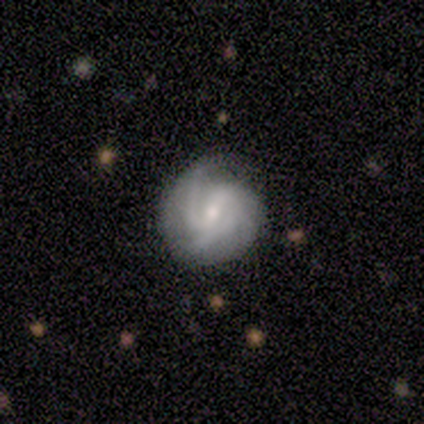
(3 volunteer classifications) Smooth or featured?
  - smooth: 67% *
  - star or artifact: 33%
  - featured or disk: 0%
How rounded?
  - round: 100% *
  - in between: 0%
  - cigar-shaped: 0%
Merging?
  - minor disturbance: 100% *
  - none: 0%
  - major disturbance: 0%
  - merger: 0%